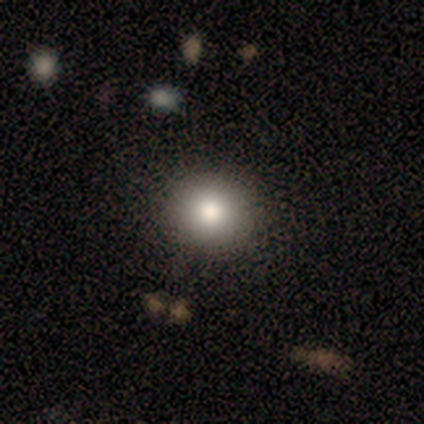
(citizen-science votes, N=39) Q: Smooth or featured?
A: smooth (85%); runner-up: featured or disk (8%)
Q: How rounded?
A: round (88%); runner-up: in between (12%)
Q: Merging?
A: none (92%); runner-up: minor disturbance (8%)